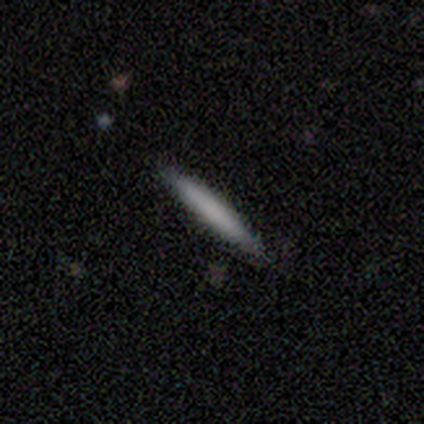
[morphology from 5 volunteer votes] Overall: smooth (100%). How rounded: cigar-shaped (100%). Merging: none (100%).